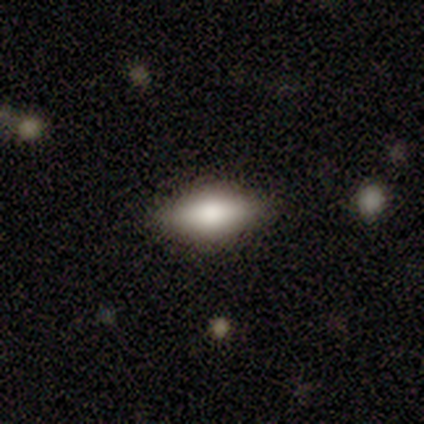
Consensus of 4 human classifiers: Smooth or featured?
  - smooth: 50% *
  - featured or disk: 25%
  - star or artifact: 25%
How rounded?
  - in between: 100% *
  - round: 0%
  - cigar-shaped: 0%
Merging?
  - none: 67% *
  - minor disturbance: 33%
  - major disturbance: 0%
  - merger: 0%